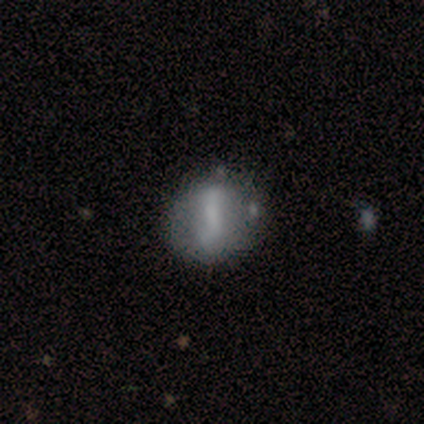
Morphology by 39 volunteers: Smooth or featured: smooth — 51% (featured or disk — 46%)
How rounded: round — 75% (in between — 20%)
Merging: none — 42% (minor disturbance — 18%)